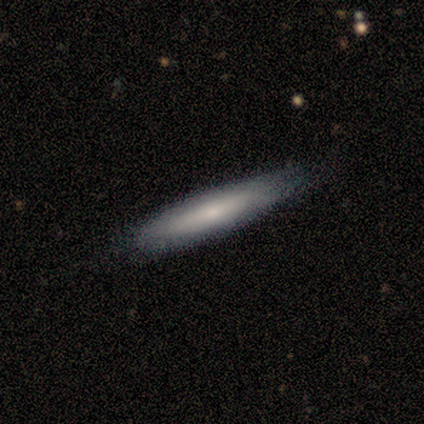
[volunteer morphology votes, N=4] A smooth galaxy with no disk features (75%) that is cigar-shaped (67%).

Vote fractions:
- Smooth or featured? smooth: 75% / featured or disk: 25% / star or artifact: 0%
- How rounded? cigar-shaped: 67% / in between: 33% / round: 0%
- Merging? none: 50% (tied) / minor disturbance: 50% (tied) / major disturbance: 0% / merger: 0%